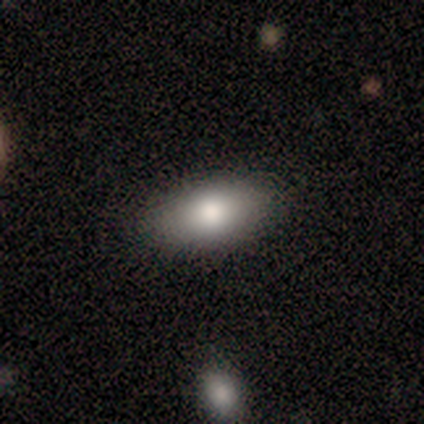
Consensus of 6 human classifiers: Smooth or featured? 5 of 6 (83%) said smooth. How rounded? 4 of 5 (80%) said in between. Merging? 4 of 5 (80%) said none.